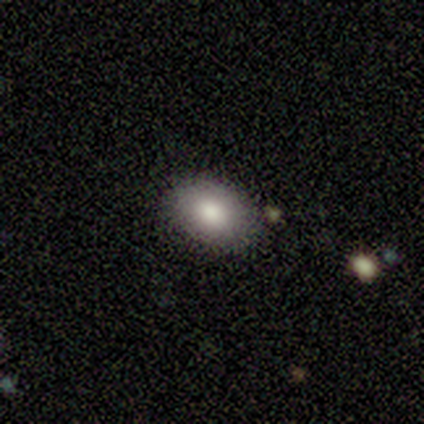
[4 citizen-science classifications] A smooth galaxy with no disk features (100%) that is in between round and cigar-shaped (100%). Merging: none (75%).